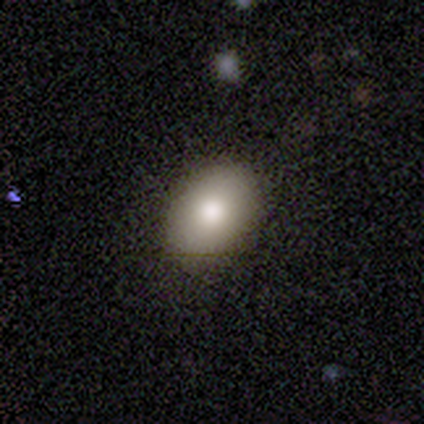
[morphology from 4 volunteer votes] A smooth galaxy with no disk features (75%) that is in between round and cigar-shaped (67%).

Vote fractions:
- Smooth or featured? smooth: 75% / featured or disk: 25% / star or artifact: 0%
- How rounded? in between: 67% / round: 33% / cigar-shaped: 0%
- Merging? none: 100% / minor disturbance: 0% / major disturbance: 0% / merger: 0%